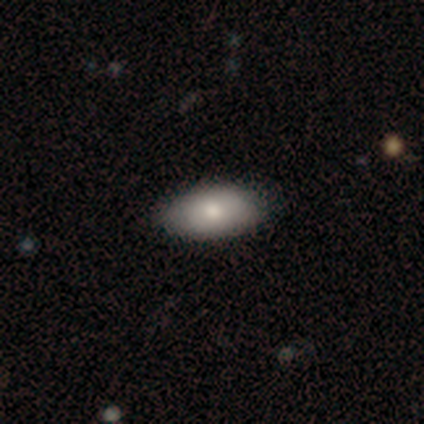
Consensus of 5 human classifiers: Smooth or featured?
  - smooth: 80% *
  - featured or disk: 20%
  - star or artifact: 0%
How rounded?
  - in between: 100% *
  - round: 0%
  - cigar-shaped: 0%
Merging?
  - none: 100% *
  - minor disturbance: 0%
  - major disturbance: 0%
  - merger: 0%